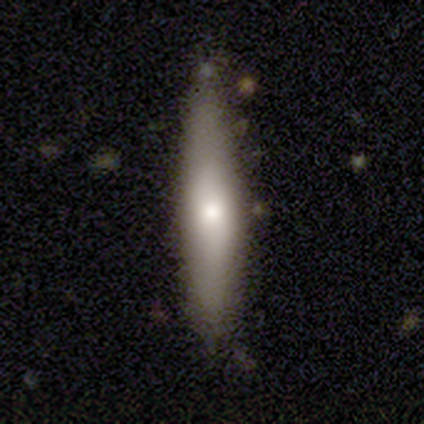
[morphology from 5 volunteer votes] A featured or disk galaxy (80%) viewed edge-on (75%) with a rounded central bulge (67%). Merging: none (100%).